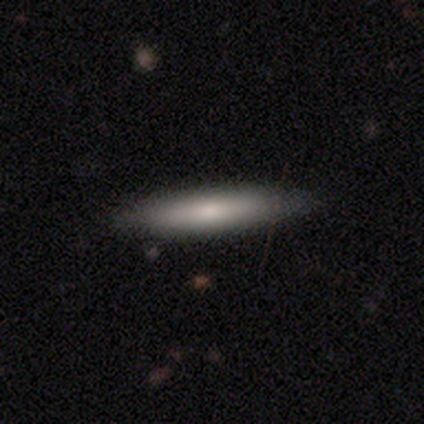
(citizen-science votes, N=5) A smooth galaxy with no disk features (80%) that is cigar-shaped (100%). Merging: none (100%).